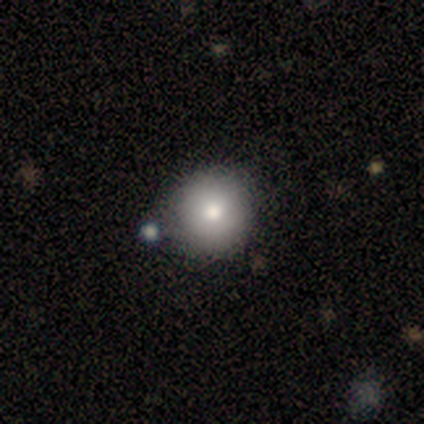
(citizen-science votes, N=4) A smooth galaxy with no disk features (100%) that is round (100%). Merging: none (100%).